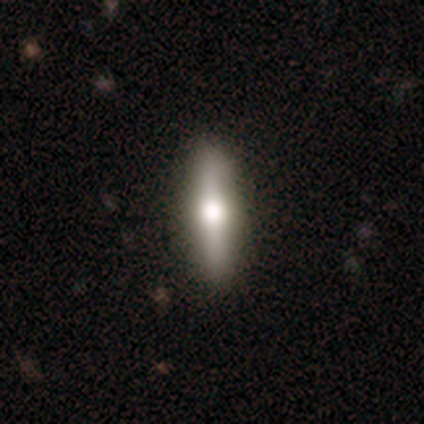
A featured or disk galaxy (49%) viewed edge-on (86%) with a rounded central bulge (100%). Merging: none (98%).